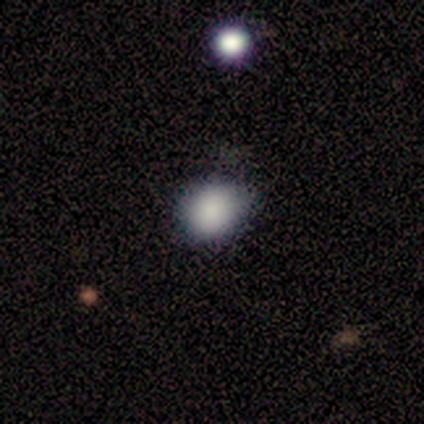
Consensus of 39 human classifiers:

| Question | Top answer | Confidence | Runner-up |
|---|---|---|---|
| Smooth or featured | smooth | 82% | star or artifact (13%) |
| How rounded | round | 53% | in between (47%) |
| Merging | none | 68% | minor disturbance (29%) |